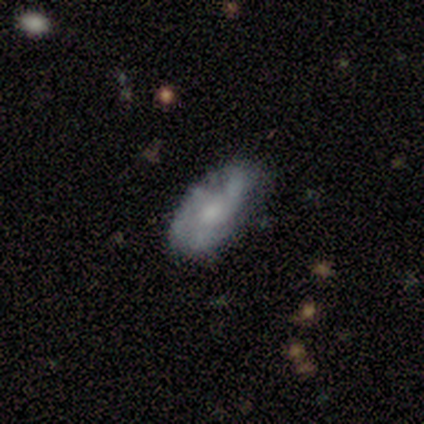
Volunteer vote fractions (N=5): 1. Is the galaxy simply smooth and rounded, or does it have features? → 80% featured or disk, 20% smooth, 0% star or artifact.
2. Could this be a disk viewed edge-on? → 100% no, 0% yes.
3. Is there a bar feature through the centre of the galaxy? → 75% no, 25% weak, 0% strong.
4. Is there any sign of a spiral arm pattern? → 75% yes, 25% no.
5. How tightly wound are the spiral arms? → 67% medium, 33% tight, 0% loose.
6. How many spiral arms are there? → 100% 2, 0% 1, 0% 3, 0% 4, 0% more than 4, 0% can't tell.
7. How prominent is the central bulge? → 75% moderate, 25% none, 0% dominant, 0% large, 0% small.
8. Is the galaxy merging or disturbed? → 100% none, 0% minor disturbance, 0% major disturbance, 0% merger.